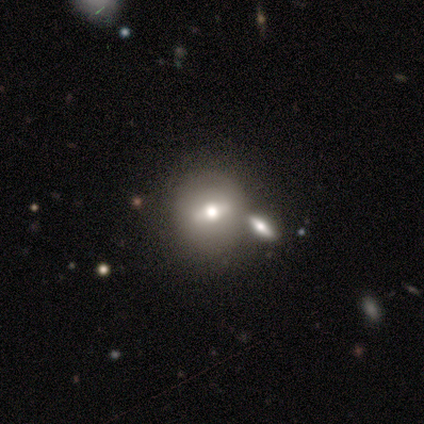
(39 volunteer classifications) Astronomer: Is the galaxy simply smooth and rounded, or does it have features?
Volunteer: featured or disk — 51% (runner-up: smooth, 46%).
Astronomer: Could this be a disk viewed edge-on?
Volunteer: no — 90%.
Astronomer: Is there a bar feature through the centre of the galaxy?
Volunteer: weak — 44% (runner-up: strong, 33%).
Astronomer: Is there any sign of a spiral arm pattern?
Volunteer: no — 94%.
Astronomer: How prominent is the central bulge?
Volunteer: moderate — 83%.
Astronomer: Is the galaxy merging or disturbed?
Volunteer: none — 55% (runner-up: merger, 32%).